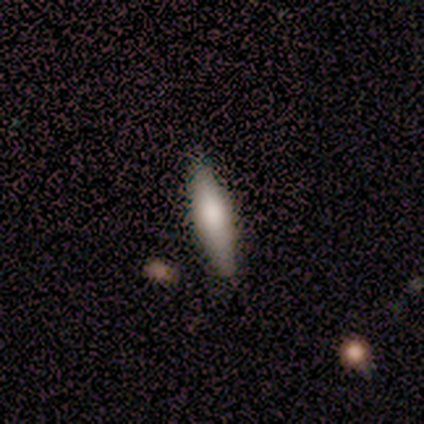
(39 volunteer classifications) Volunteers were most divided on "how rounded": cigar-shaped: 67%, in between: 33%, round: 0%. More confident: merging — none (85%); smooth or featured — smooth (69%).